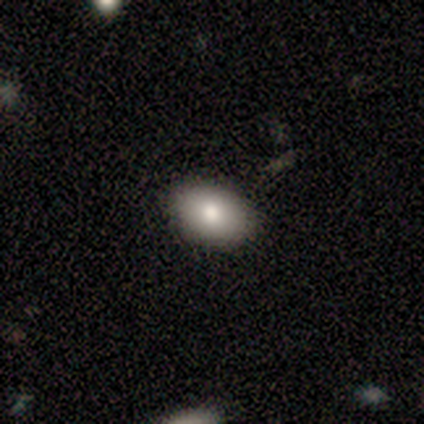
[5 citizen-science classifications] Q: Smooth or featured?
A: smooth (80%); runner-up: star or artifact (20%)
Q: How rounded?
A: in between (100%)
Q: Merging?
A: none (100%)